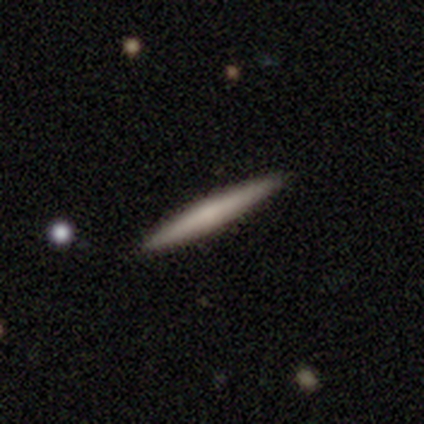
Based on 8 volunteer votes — Smooth or featured?
  - smooth: 62% *
  - featured or disk: 38%
  - star or artifact: 0%
How rounded?
  - cigar-shaped: 100% *
  - round: 0%
  - in between: 0%
Merging?
  - none: 100% *
  - minor disturbance: 0%
  - major disturbance: 0%
  - merger: 0%